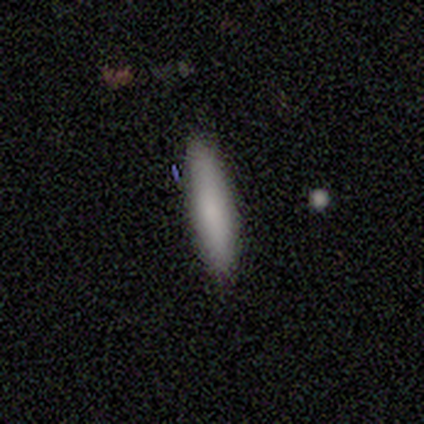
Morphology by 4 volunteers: type=smooth (75%); roundness=cigar-shaped (67%); merging=none (100%).